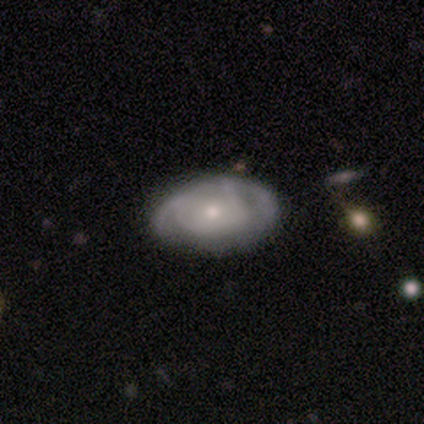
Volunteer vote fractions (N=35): Volunteers were most divided on "spiral arms": yes: 67%, no: 33%. More confident: edge-on disk — no (100%); bar — no (88%); bulge size — small (79%); merging — none (77%); spiral arm count — can't tell (69%); smooth or featured — featured or disk (69%); spiral winding — tight (62%).